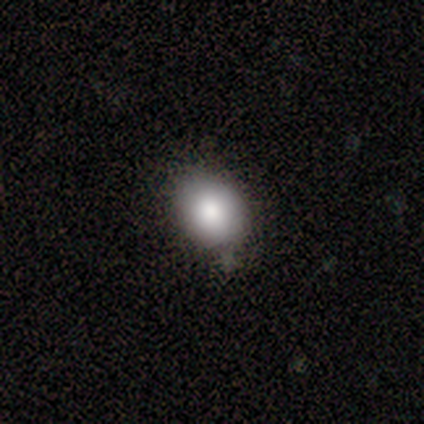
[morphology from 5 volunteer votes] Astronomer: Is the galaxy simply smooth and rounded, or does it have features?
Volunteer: smooth — 80%.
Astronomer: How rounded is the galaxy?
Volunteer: round — 50%, tied with in between at 50%.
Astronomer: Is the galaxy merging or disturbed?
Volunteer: none — 60% (runner-up: minor disturbance, 40%).